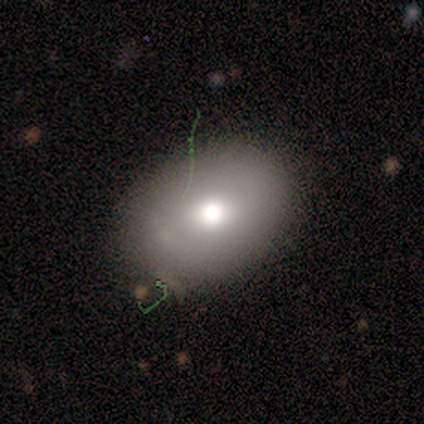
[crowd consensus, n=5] Overall: smooth (60%; featured or disk 40%). How rounded: in between (67%; round 33%). Merging: none (80%).